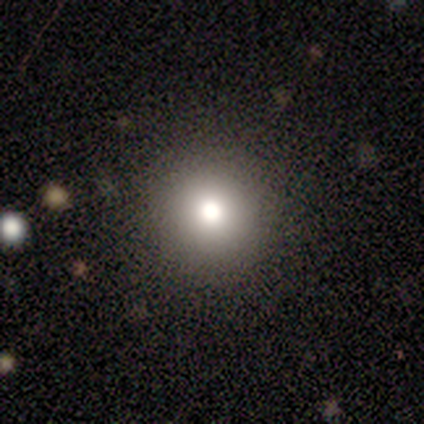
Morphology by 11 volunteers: A smooth galaxy with no disk features (45%) that is round (100%).

Vote fractions:
- Smooth or featured? smooth: 45% / star or artifact: 36% / featured or disk: 18%
- How rounded? round: 100% / in between: 0% / cigar-shaped: 0%
- Merging? none: 100% / minor disturbance: 0% / major disturbance: 0% / merger: 0%